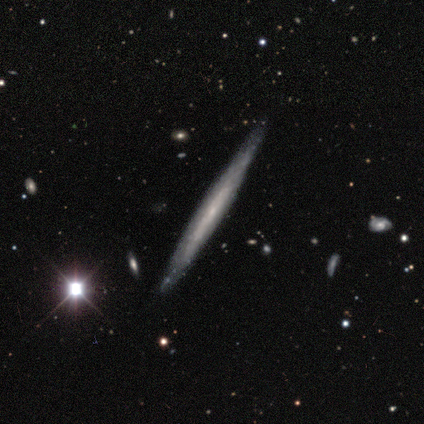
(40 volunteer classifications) Morphology: type=featured or disk (75%); edge-on=yes (97%); edge-on bulge=none (72%); merging=none (82%).